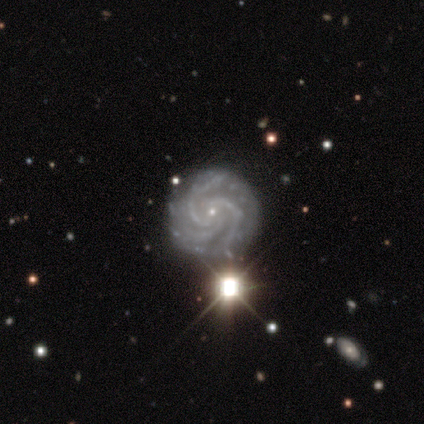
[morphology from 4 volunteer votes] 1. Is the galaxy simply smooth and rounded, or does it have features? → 100% featured or disk, 0% smooth, 0% star or artifact.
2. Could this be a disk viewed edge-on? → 100% no, 0% yes.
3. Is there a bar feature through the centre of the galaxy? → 75% no, 25% strong, 0% weak.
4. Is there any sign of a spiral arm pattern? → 100% yes, 0% no.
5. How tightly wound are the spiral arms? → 100% tight, 0% medium, 0% loose.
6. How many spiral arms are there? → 75% 3, 25% more than 4, 0% 1, 0% 2, 0% 4, 0% can't tell.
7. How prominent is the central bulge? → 100% small, 0% dominant, 0% large, 0% moderate, 0% none.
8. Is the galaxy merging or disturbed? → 75% none, 25% minor disturbance, 0% major disturbance, 0% merger.